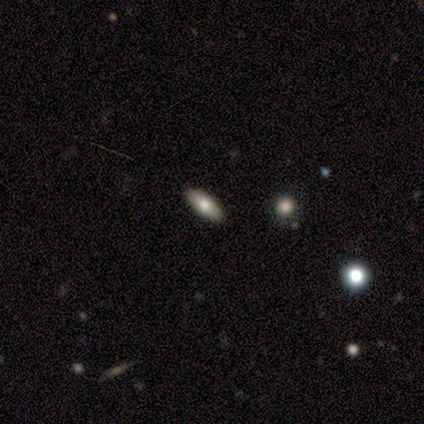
This appears to be a smooth galaxy with no disk features (60%) that is in between round and cigar-shaped (67%). Merging: none (100%).